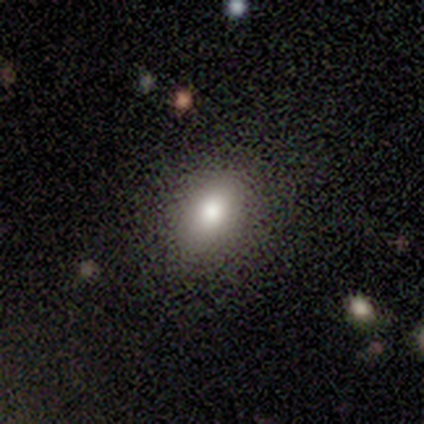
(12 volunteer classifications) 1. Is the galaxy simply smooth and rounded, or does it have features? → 75% smooth, 25% featured or disk, 0% star or artifact.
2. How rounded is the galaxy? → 89% in between, 11% round, 0% cigar-shaped.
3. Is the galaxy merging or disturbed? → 92% none, 8% minor disturbance, 0% major disturbance, 0% merger.